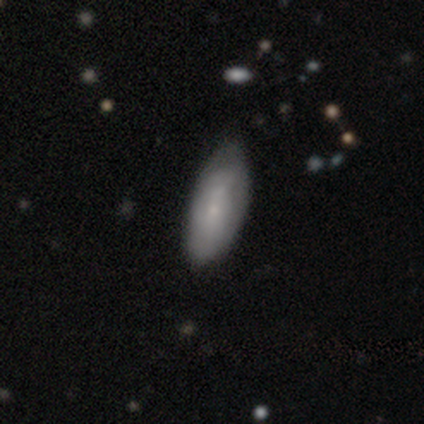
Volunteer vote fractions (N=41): Volunteers were most divided on "merging": none: 51%, minor disturbance: 41%, major disturbance: 7%, merger: 0%. More confident: how rounded — in between (96%); smooth or featured — smooth (59%).